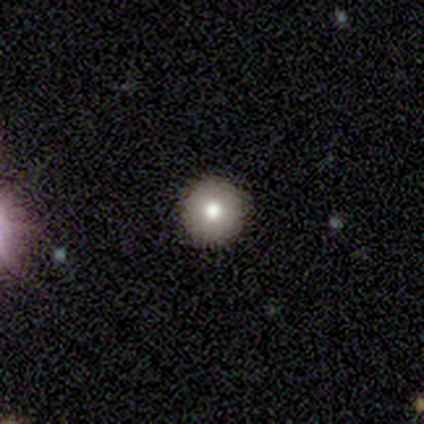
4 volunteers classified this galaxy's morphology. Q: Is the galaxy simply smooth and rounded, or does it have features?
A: smooth — 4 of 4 (100%).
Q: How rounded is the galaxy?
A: round — 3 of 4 (75%).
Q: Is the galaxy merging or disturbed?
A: none — 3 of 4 (75%).